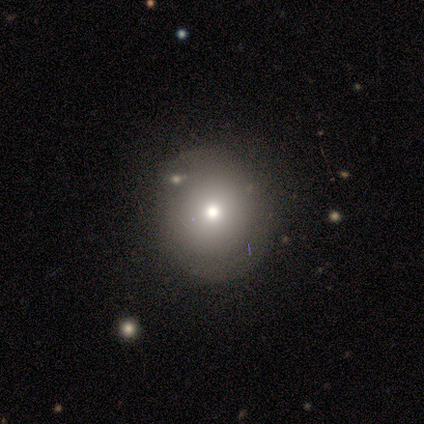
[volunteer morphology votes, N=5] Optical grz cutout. It shows a smooth galaxy with no disk features (100%) that is round (100%). Merging: none (80%).